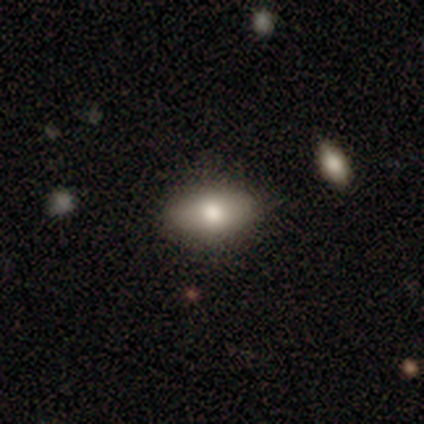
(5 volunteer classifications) Volunteers were most divided on "smooth or featured": smooth: 60%, featured or disk: 40%, star or artifact: 0%. More confident: how rounded — in between (100%); merging — none (100%).